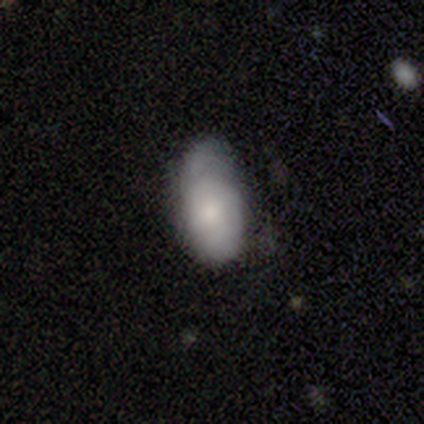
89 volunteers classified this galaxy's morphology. smooth-or-featured: smooth: 73% | featured or disk: 18% | star or artifact: 9%
  how-rounded: in between: 94% | round: 5% | cigar-shaped: 2%
  merging: none: 46% | minor disturbance: 44% | major disturbance: 10% | merger: 0%